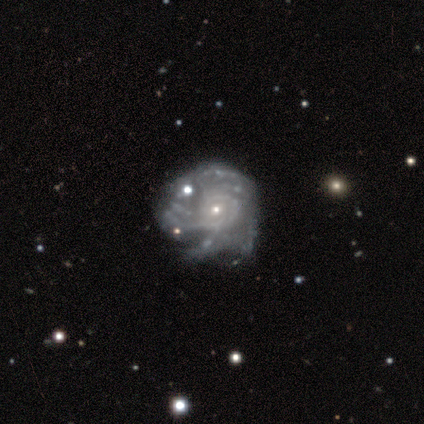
smooth-or-featured: featured or disk: 80% | smooth: 20% | star or artifact: 0%
  disk-edge-on: no: 100% | yes: 0%
    bar: no: 75% | weak: 25% | strong: 0%
    has-spiral-arms: yes: 100% | no: 0%
      spiral-winding: medium: 50% | tight: 25% | loose: 25%
      spiral-arm-count: 4: 50% (tied) | can't tell: 50% (tied) | 1: 0% | 2: 0% | 3: 0% | more than 4: 0%
    bulge-size: small: 75% | moderate: 25% | dominant: 0% | large: 0% | none: 0%
  merging: none: 60% | minor disturbance: 40% | major disturbance: 0% | merger: 0%